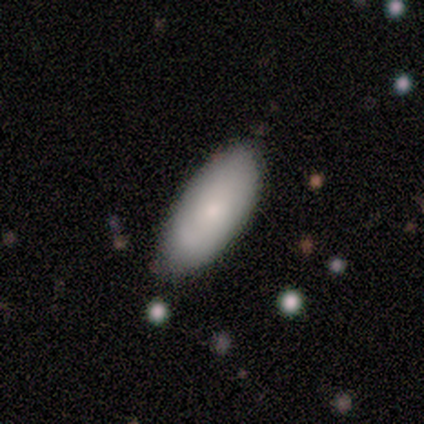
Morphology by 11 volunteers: Overall: smooth (73%). How rounded: in between (50%, tied with cigar-shaped). Merging: none (73%).